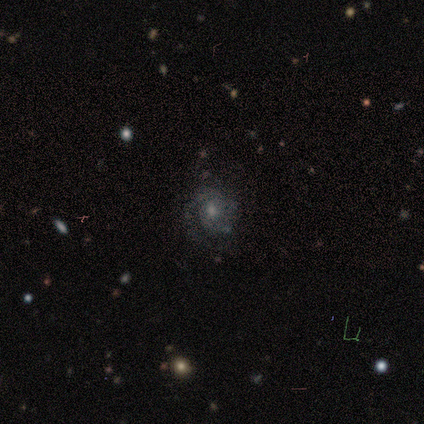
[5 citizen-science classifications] This is clearly a featured or disk galaxy (100%). It is clearly not viewed edge-on (80%). Bar: likely no (75%). Spiral arm pattern: clearly yes (100%). Spiral arm count: possibly 2 (50%). Spiral winding: likely tight (75%). Central bulge: possibly moderate (50%). Merging: clearly none (100%).